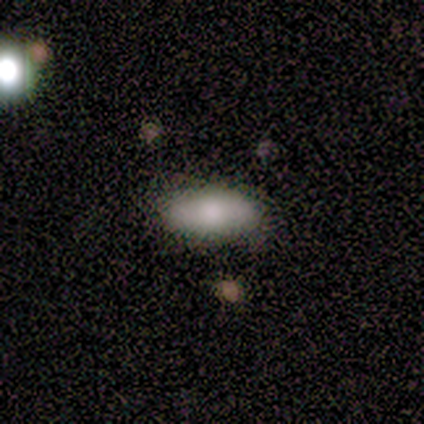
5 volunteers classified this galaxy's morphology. Smooth or featured? smooth (100%)
How rounded? in between (100%)
Merging? none (60%)